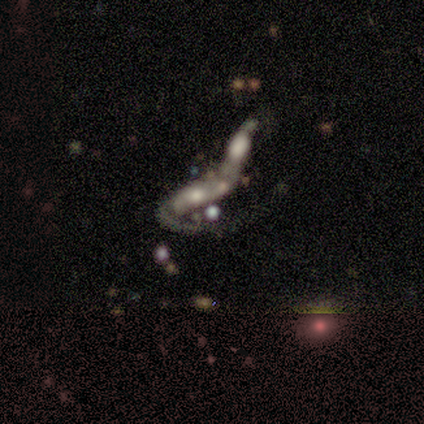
Smooth or featured?
  - featured or disk: 75% *
  - star or artifact: 25%
  - smooth: 0%
Edge-on disk?
  - no: 67% *
  - yes: 33%
Bar?
  - strong: 100% *
  - weak: 0%
  - no: 0%
Spiral arms?
  - yes: 100% *
  - no: 0%
Spiral winding?
  - loose: 100% *
  - tight: 0%
  - medium: 0%
Spiral arm count?
  - 1: 50% * (tied)
  - 2: 50% * (tied)
  - 3: 0%
  - 4: 0%
  - more than 4: 0%
  - can't tell: 0%
Bulge size?
  - moderate: 50% * (tied)
  - small: 50% * (tied)
  - dominant: 0%
  - large: 0%
  - none: 0%
Merging?
  - merger: 100% *
  - none: 0%
  - minor disturbance: 0%
  - major disturbance: 0%